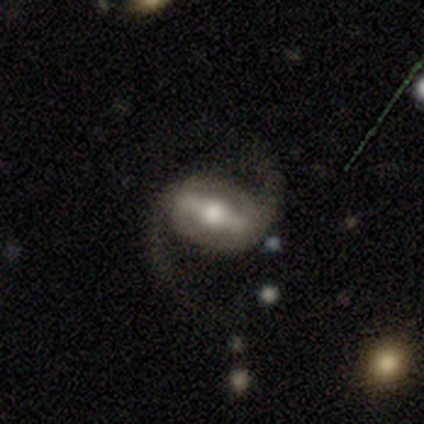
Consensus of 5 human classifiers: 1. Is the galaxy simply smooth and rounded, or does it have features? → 100% featured or disk, 0% smooth, 0% star or artifact.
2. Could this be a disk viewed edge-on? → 60% no, 40% yes.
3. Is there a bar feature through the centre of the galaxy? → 67% strong, 33% no, 0% weak.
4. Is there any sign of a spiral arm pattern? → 100% yes, 0% no.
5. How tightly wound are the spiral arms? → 100% medium, 0% tight, 0% loose.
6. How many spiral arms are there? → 100% 2, 0% 1, 0% 3, 0% 4, 0% more than 4, 0% can't tell.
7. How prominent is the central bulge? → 67% large, 33% small, 0% dominant, 0% moderate, 0% none.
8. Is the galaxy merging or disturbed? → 100% none, 0% minor disturbance, 0% major disturbance, 0% merger.